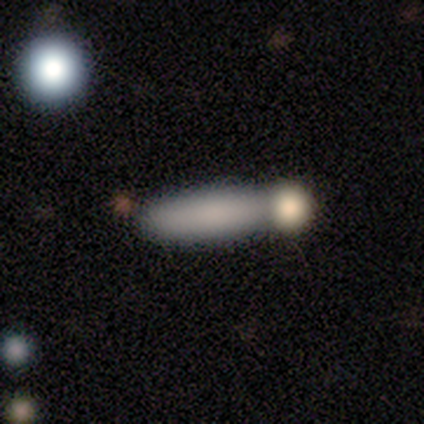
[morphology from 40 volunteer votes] smooth_or_featured: smooth (p=0.57) [alt: star or artifact p=0.23]
how_rounded: cigar-shaped (p=0.78) [alt: in between p=0.17]
merging: none (p=0.48) [alt: merger p=0.35]